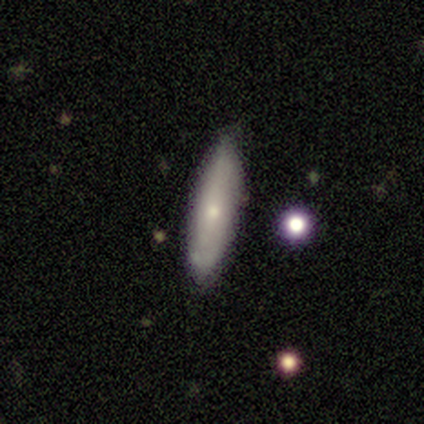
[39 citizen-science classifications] This appears to be a smooth galaxy with no disk features (49%, tied with featured or disk) that is cigar-shaped (74%). Merging: none (87%).